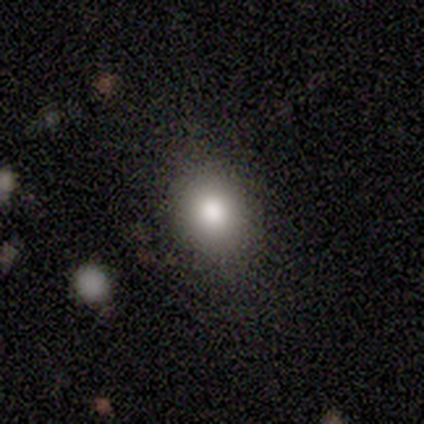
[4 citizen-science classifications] Smooth or featured: smooth — 75% (featured or disk — 25%)
How rounded: in between — 100%
Merging: none — 75% (merger — 25%)